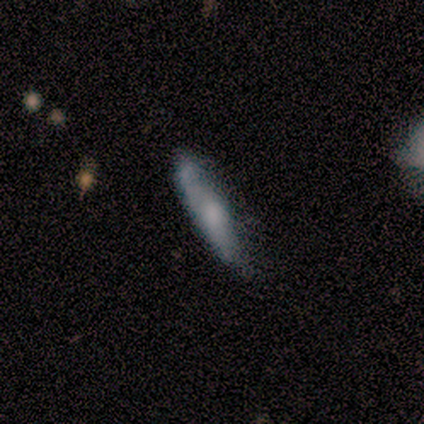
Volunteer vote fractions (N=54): A smooth galaxy with no disk features (59%) that is cigar-shaped (75%).

Vote fractions:
- Smooth or featured? smooth: 59% / featured or disk: 31% / star or artifact: 9%
- How rounded? cigar-shaped: 75% / in between: 22% / round: 3%
- Merging? none: 59% / minor disturbance: 24% / merger: 12% / major disturbance: 4%